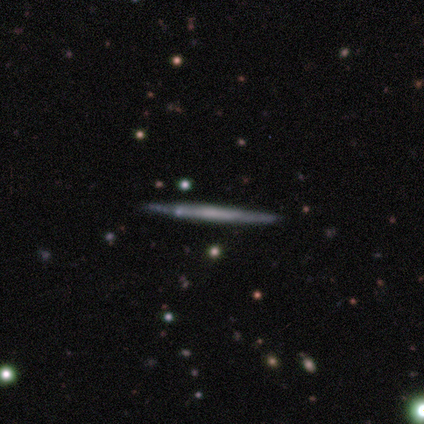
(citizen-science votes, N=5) Overall: featured or disk (80%). Edge-on disk: yes (100%). Edge-on bulge: boxy (50%, tied with none). Merging: none (80%).